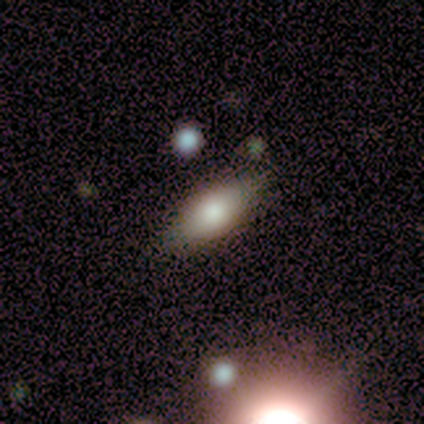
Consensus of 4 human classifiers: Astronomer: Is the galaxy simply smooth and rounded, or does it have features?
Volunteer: smooth — 100%.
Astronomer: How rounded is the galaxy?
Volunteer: in between — 75%.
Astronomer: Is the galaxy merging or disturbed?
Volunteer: none — 100%.